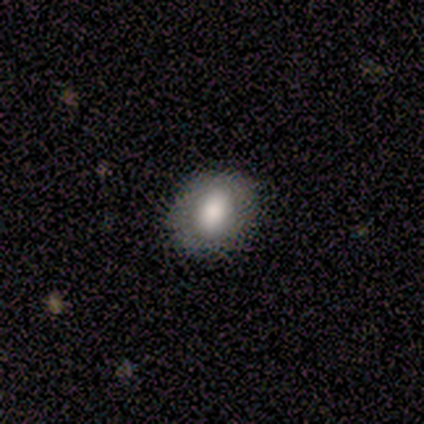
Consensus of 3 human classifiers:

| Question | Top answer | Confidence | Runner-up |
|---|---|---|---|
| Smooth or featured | smooth | 67% | featured or disk (33%) |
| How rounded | round | 50% | tied: in between (50%) |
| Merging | none | 100% | — |